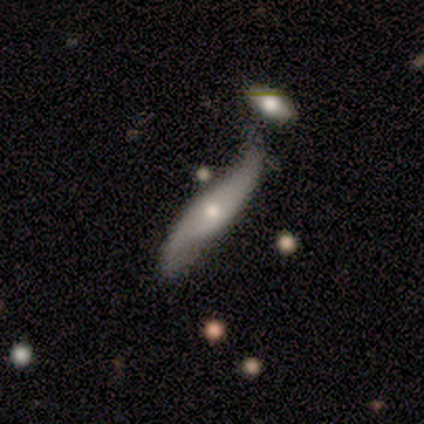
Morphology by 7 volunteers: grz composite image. It shows a featured or disk galaxy (71%) with a strong bar (33%, tied with weak and no), 2 (100%) loose (67%) spiral arms (100%) and a small central bulge (67%). Merging: none (57%).